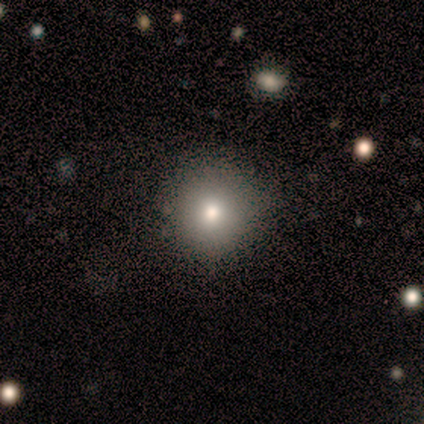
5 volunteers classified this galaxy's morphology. Volunteers were most divided on "smooth or featured": smooth: 60%, featured or disk: 40%, star or artifact: 0%. More confident: how rounded — round (100%); merging — none (80%).